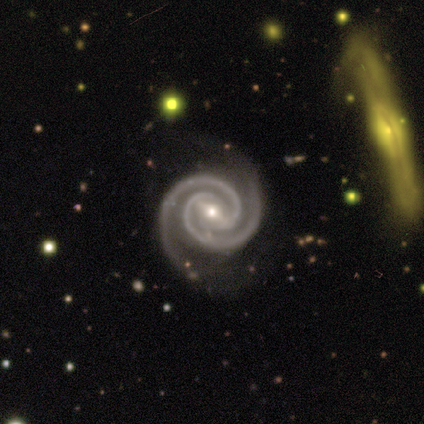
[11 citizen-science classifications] Smooth or featured: featured or disk — 100%
Edge-on disk: no — 91% (yes — 9%)
Bar: strong — 60% (weak — 30%)
Spiral arms: yes — 100%
Spiral winding: tight — 70% (medium — 30%)
Spiral arm count: 2 — 100%
Bulge size: small — 60% (moderate — 40%)
Merging: none — 91% (minor disturbance — 9%)